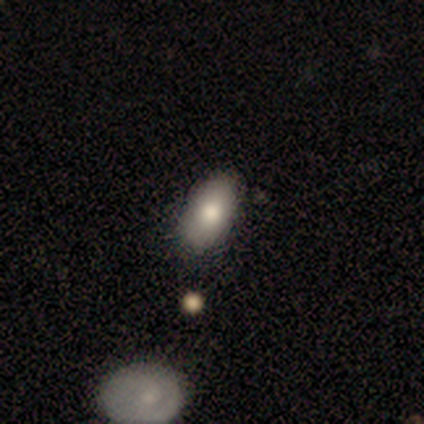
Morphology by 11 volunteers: This appears to be a smooth galaxy with no disk features (73%) that is in between round and cigar-shaped (100%). Merging: none (50%, tied with minor disturbance).